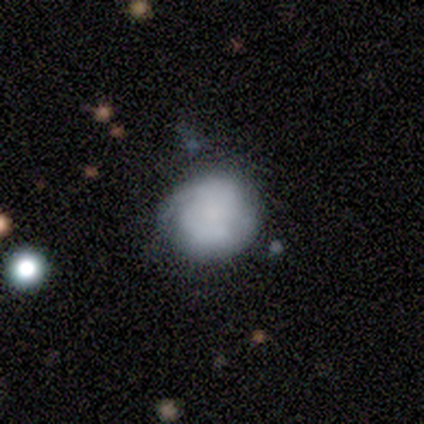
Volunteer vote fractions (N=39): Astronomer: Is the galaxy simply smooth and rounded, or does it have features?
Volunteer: smooth — 67%.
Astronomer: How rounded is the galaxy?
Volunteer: round — 85%.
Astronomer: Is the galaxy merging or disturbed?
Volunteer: none — 68%.